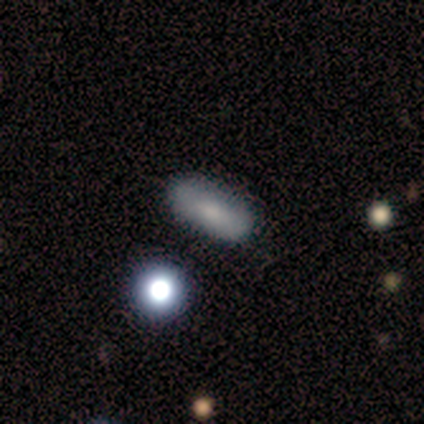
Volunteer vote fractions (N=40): Morphology: type=smooth (80%); roundness=in between (81%); merging=none (79%).